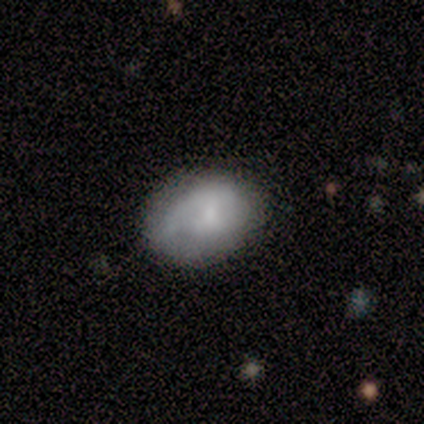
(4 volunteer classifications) Morphology: type=smooth (75%); roundness=in between (67%); merging=none (100%).